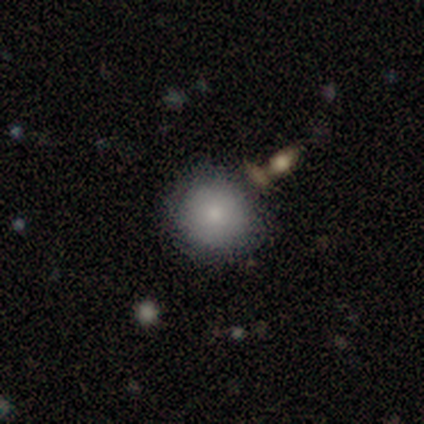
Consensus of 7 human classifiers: Smooth or featured? smooth (86%)
How rounded? round (100%)
Merging? none (83%)